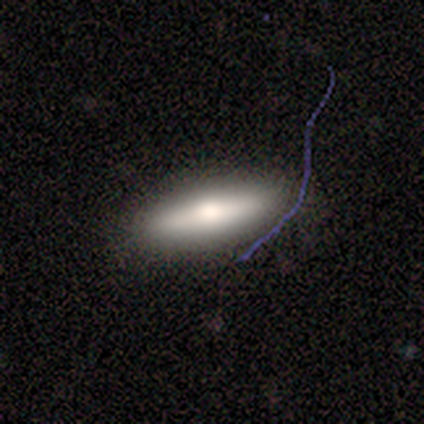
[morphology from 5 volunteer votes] Volunteers were most divided on "bulge size" (2-way tie): large: 50%, moderate: 50%, dominant: 0%, small: 0%, none: 0%. More confident: bar — no (100%); spiral arms — no (100%); merging — none (80%); edge-on disk — no (67%); smooth or featured — featured or disk (60%).